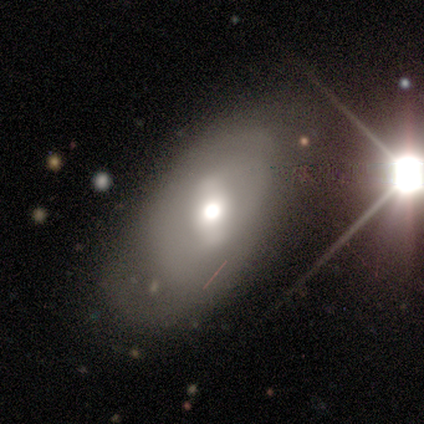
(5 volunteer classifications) Smooth or featured? featured or disk (60%)
Edge-on disk? no (100%)
Bar? strong (67%)
Spiral arms? no (67%)
Bulge size? moderate (100%)
Merging? minor disturbance (75%)